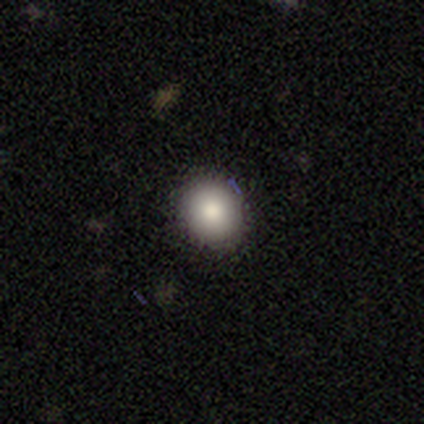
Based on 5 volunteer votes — This is clearly a smooth galaxy (100%). How rounded: clearly round (80%). Merging: clearly none (80%).